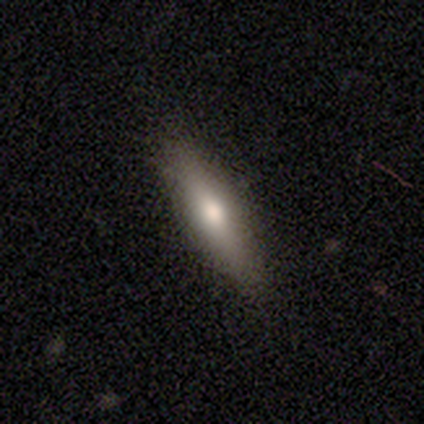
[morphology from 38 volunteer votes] A smooth galaxy with no disk features (58%) that is cigar-shaped (68%).

Vote fractions:
- Smooth or featured? smooth: 58% / featured or disk: 34% / star or artifact: 8%
- How rounded? cigar-shaped: 68% / in between: 32% / round: 0%
- Merging? none: 86% / minor disturbance: 11% / major disturbance: 3% / merger: 0%